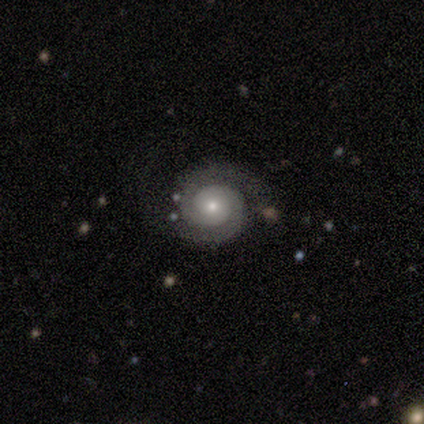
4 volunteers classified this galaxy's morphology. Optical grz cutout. It shows a featured or disk galaxy (100%) with no bar (100%), 2 (100%) tight (50%, tied with medium) spiral arms (100%) and a small central bulge (75%). Merging: none (75%).